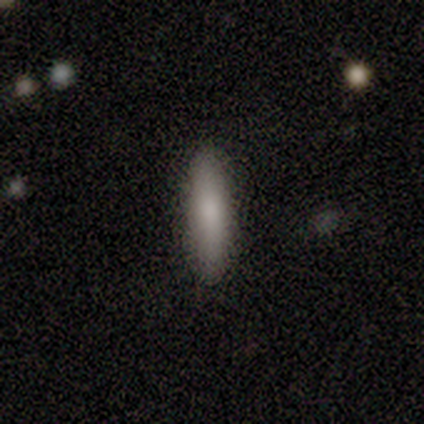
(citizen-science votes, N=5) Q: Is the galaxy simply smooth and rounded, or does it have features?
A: smooth — 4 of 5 (80%).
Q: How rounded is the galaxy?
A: cigar-shaped — 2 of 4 (50%).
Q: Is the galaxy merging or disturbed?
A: none — 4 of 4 (100%).